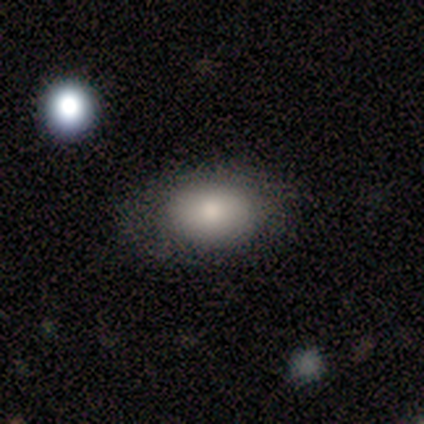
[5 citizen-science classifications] smooth_or_featured: smooth (p=0.60) [alt: featured or disk p=0.20]
how_rounded: in between (p=1.00)
merging: none (p=0.75) [alt: minor disturbance p=0.25]